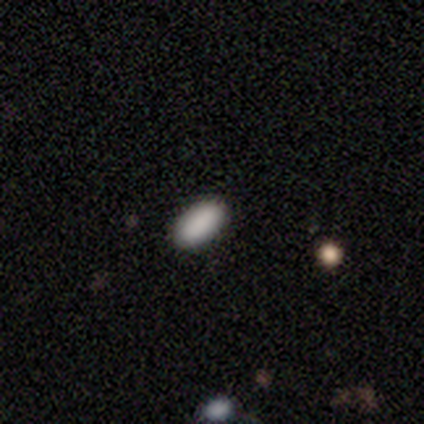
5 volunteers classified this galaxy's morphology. type=smooth (100%); roundness=in between (100%); merging=none (80%).